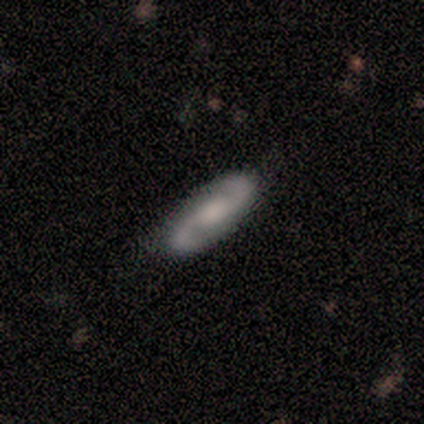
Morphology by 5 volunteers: smooth-or-featured: featured or disk: 60% | smooth: 40% | star or artifact: 0%
  disk-edge-on: no: 100% | yes: 0%
    bar: strong: 33% (tied) | weak: 33% (tied) | no: 33% (tied)
    has-spiral-arms: yes: 100% | no: 0%
      spiral-winding: loose: 67% | medium: 33% | tight: 0%
      spiral-arm-count: 2: 100% | 1: 0% | 3: 0% | 4: 0% | more than 4: 0% | can't tell: 0%
    bulge-size: large: 33% (tied) | moderate: 33% (tied) | small: 33% (tied) | dominant: 0% | none: 0%
  merging: none: 100% | minor disturbance: 0% | major disturbance: 0% | merger: 0%